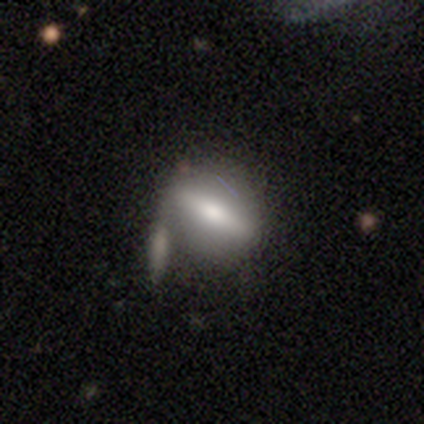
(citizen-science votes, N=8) This appears to be a smooth galaxy with no disk features (50%, tied with featured or disk) that is in between round and cigar-shaped (50%). Merging: none (38%, tied with major disturbance).